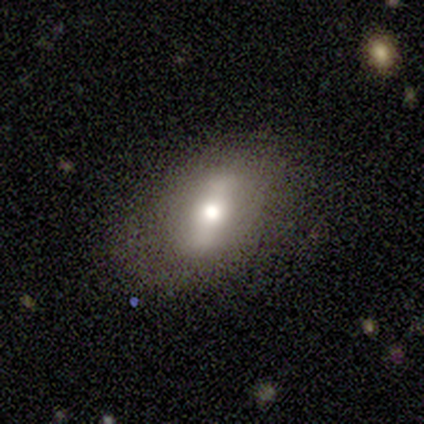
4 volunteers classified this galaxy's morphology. Smooth or featured: smooth — 75% (star or artifact — 25%)
How rounded: in between — 67% (round — 33%)
Merging: none — 67% (minor disturbance — 33%)